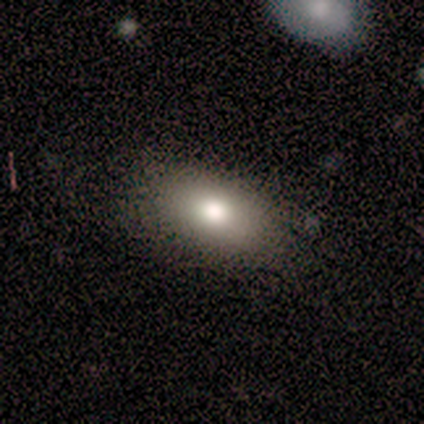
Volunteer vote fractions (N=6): smooth_or_featured: smooth (p=0.67) [alt: featured or disk p=0.17]
how_rounded: in between (p=0.75) [alt: round p=0.25]
merging: none (p=1.00)